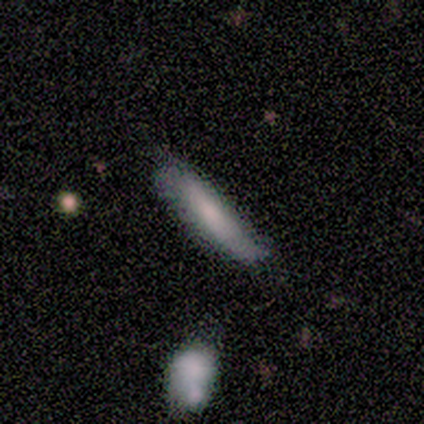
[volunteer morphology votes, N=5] This appears to be a smooth galaxy with no disk features (60%) that is cigar-shaped (100%). Merging: none (60%).